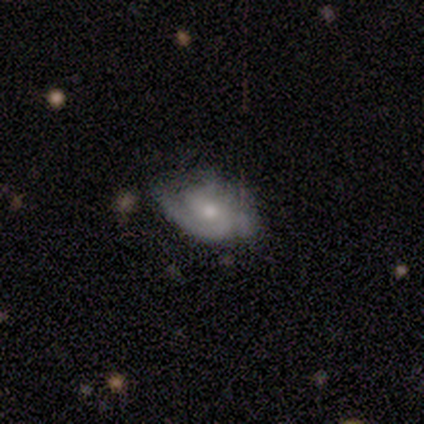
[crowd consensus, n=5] Smooth or featured? 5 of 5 (100%) said featured or disk. Edge-on disk? 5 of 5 (100%) said no. Bar? 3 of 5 (60%) said no. Spiral arms? 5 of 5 (100%) said yes. Spiral winding? 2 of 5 (40%, tied with loose) said medium. Spiral arm count? 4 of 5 (80%) said 2. Bulge size? 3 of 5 (60%) said moderate. Merging? 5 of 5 (100%) said none.